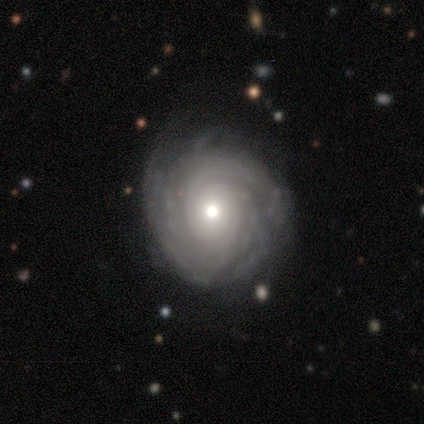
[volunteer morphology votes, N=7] Smooth or featured?
  - featured or disk: 86% *
  - smooth: 14%
  - star or artifact: 0%
Edge-on disk?
  - no: 100% *
  - yes: 0%
Bar?
  - no: 67% *
  - strong: 17%
  - weak: 17%
Spiral arms?
  - yes: 100% *
  - no: 0%
Spiral winding?
  - tight: 83% *
  - medium: 17%
  - loose: 0%
Spiral arm count?
  - can't tell: 50% *
  - more than 4: 33%
  - 2: 17%
  - 1: 0%
  - 3: 0%
  - 4: 0%
Bulge size?
  - moderate: 50% *
  - small: 33%
  - large: 17%
  - dominant: 0%
  - none: 0%
Merging?
  - none: 86% *
  - minor disturbance: 14%
  - major disturbance: 0%
  - merger: 0%